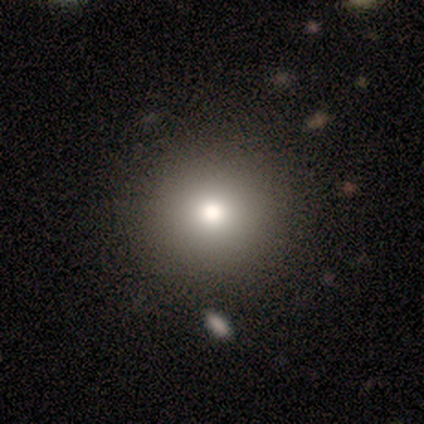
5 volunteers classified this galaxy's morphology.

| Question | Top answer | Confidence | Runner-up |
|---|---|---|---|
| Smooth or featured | smooth | 100% | — |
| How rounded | round | 100% | — |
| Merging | minor disturbance | 60% | none (40%) |